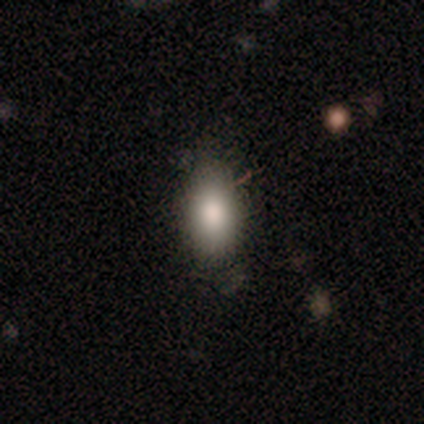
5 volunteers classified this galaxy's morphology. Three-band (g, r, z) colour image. It shows a smooth galaxy with no disk features (100%) that is in between round and cigar-shaped (100%). Merging: none (100%).